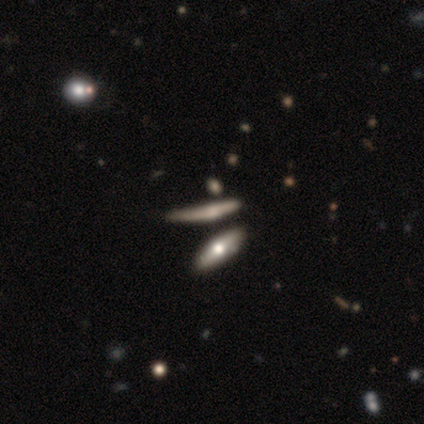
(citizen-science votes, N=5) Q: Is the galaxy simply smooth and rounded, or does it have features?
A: smooth — 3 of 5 (60%).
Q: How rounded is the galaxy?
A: cigar-shaped — 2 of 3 (67%).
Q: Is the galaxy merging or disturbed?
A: minor disturbance — 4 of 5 (80%).